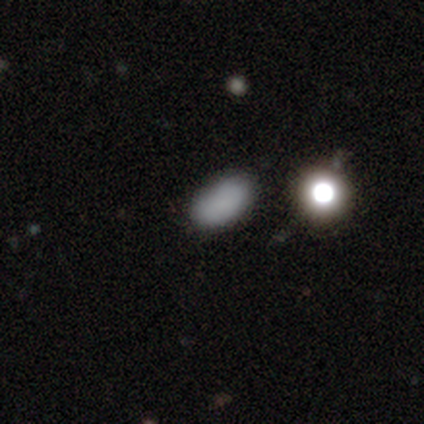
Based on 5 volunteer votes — Morphology: type=star or artifact (60%).